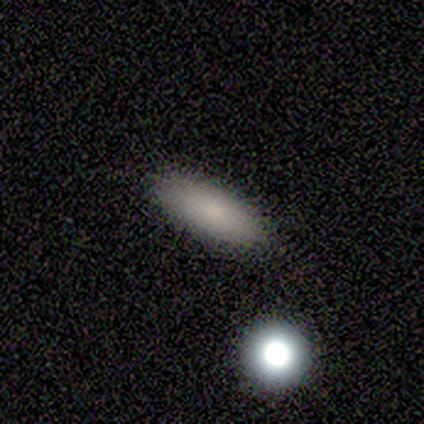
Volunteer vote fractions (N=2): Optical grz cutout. It shows a smooth galaxy with no disk features (100%) that is cigar-shaped (100%). Merging: none (100%).